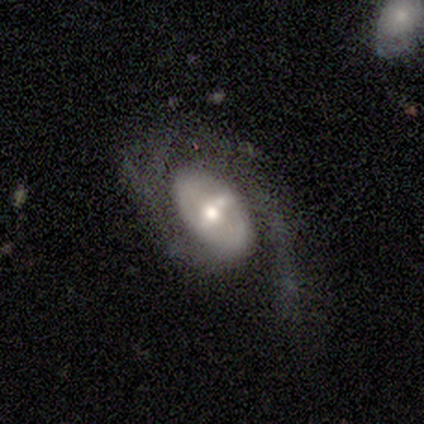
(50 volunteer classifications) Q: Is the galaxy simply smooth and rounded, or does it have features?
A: featured or disk — 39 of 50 (78%).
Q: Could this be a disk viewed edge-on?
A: no — 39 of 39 (100%).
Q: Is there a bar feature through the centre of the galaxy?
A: weak — 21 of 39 (54%).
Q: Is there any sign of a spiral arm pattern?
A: yes — 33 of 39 (85%).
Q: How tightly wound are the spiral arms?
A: medium — 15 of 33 (45%).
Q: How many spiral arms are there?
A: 1 — 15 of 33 (45%).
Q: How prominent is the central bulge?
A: moderate — 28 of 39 (72%).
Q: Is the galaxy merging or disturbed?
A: none — 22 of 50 (44%).